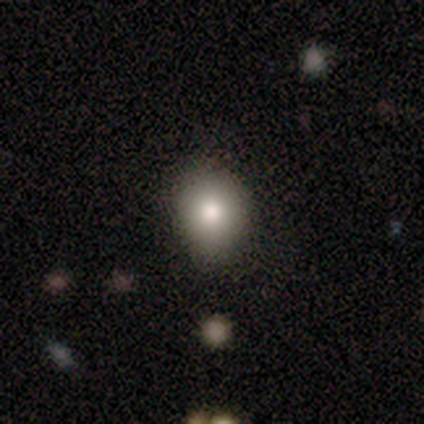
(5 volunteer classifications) Smooth or featured: smooth — 100%
How rounded: round — 80% (in between — 20%)
Merging: none — 100%